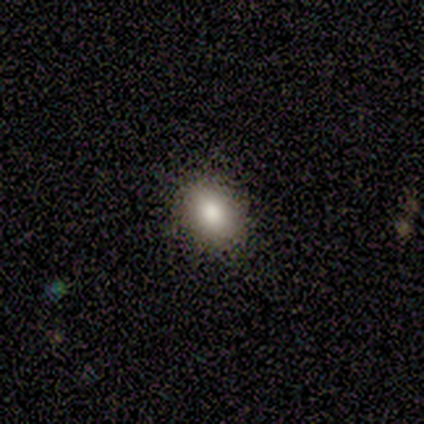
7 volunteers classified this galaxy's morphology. type=smooth (71%); roundness=in between (80%); merging=none (80%).